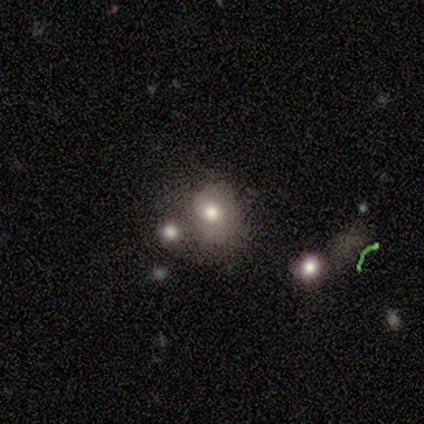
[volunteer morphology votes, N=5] Smooth or featured? 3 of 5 (60%) said smooth. How rounded? 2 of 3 (67%) said in between. Merging? 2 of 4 (50%, tied with minor disturbance) said none.